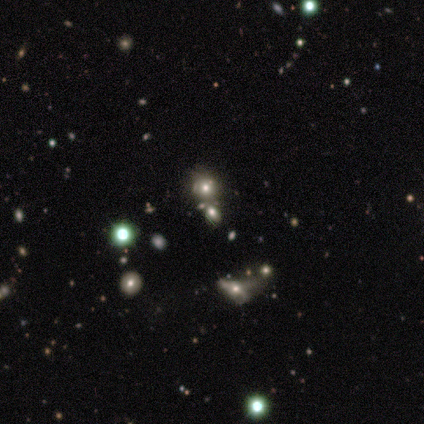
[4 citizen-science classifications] smooth 50% (tied), star or artifact 50% (tied), featured or disk 0%. Down the decision tree: how rounded — round (50%, tied with in between); merging — minor disturbance (100%).